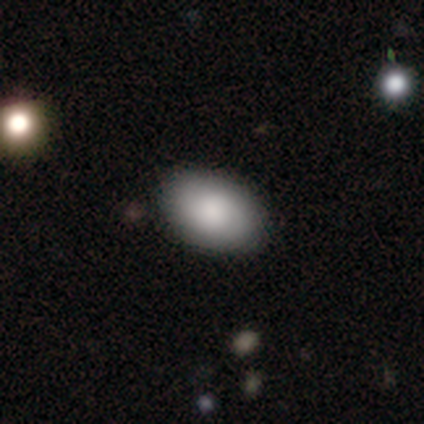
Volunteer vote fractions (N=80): This appears to be a smooth galaxy with no disk features (78%) that is in between round and cigar-shaped (95%). Merging: none (88%).